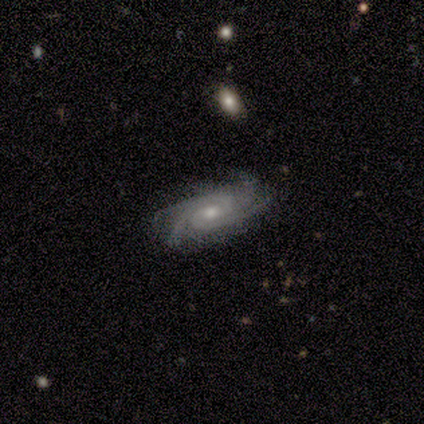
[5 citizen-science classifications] Smooth or featured: featured or disk — 80% (star or artifact — 20%)
Edge-on disk: no — 100%
Bar: weak — 50% (tied with no — 50%)
Spiral arms: yes — 100%
Spiral winding: tight — 50% (tied with medium — 50%)
Spiral arm count: 4 — 100%
Bulge size: moderate — 75% (small — 25%)
Merging: none — 75% (major disturbance — 25%)